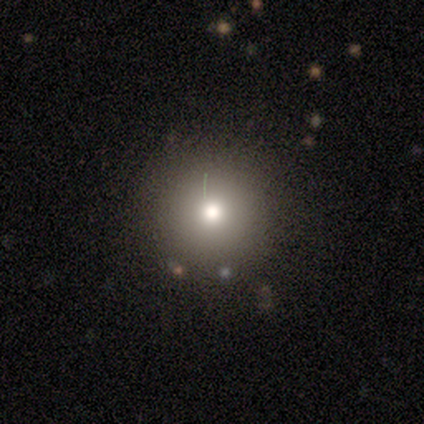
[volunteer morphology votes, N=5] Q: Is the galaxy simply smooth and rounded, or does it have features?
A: smooth — 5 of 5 (100%).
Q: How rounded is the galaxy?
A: round — 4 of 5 (80%).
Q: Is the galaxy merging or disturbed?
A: none — 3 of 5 (60%).